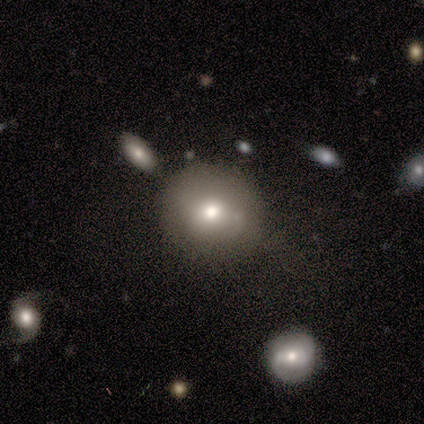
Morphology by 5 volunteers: type=smooth (40%, tied with star or artifact); roundness=round (100%); merging=none (67%).